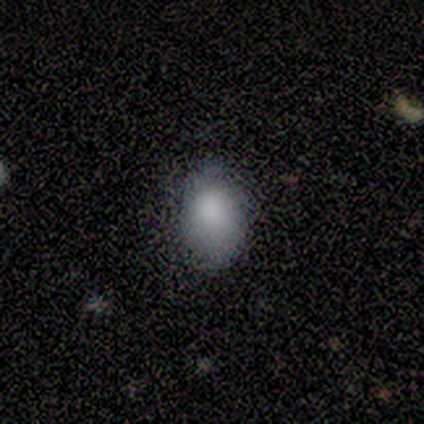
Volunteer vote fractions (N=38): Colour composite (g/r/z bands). It shows a smooth galaxy with no disk features (79%) that is in between round and cigar-shaped (77%). Merging: none (76%).